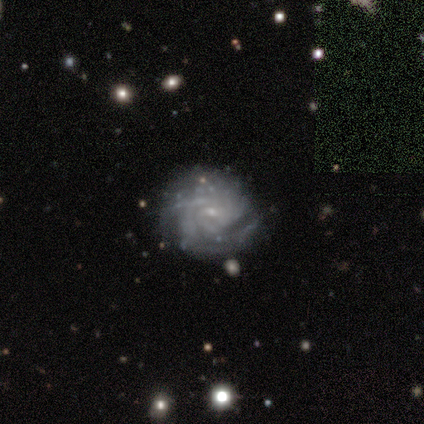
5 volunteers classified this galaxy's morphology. type=featured or disk (100%); edge-on=no (100%); bar=no (60%); spiral arms=yes (100%); winding=tight (100%); arm count=can't tell (80%); bulge=small (80%); merging=none (60%).